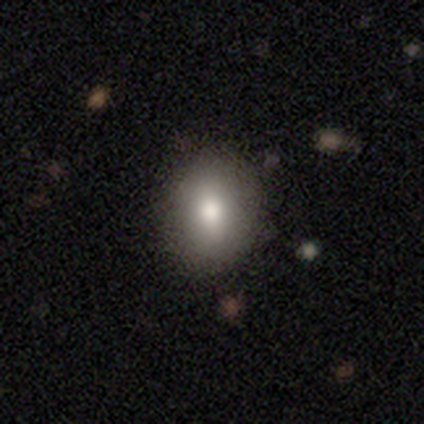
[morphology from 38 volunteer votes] Overall: smooth (79%). How rounded: in between (77%). Merging: none (65%).